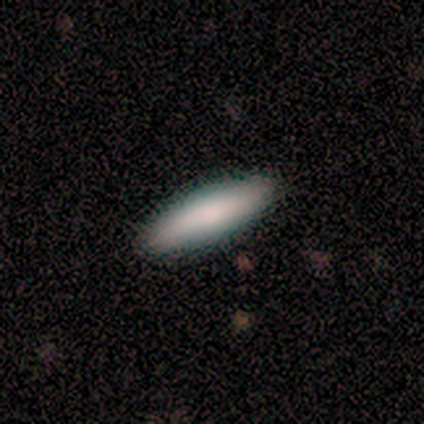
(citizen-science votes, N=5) Smooth or featured?
  - smooth: 80% *
  - star or artifact: 20%
  - featured or disk: 0%
How rounded?
  - cigar-shaped: 100% *
  - round: 0%
  - in between: 0%
Merging?
  - none: 100% *
  - minor disturbance: 0%
  - major disturbance: 0%
  - merger: 0%